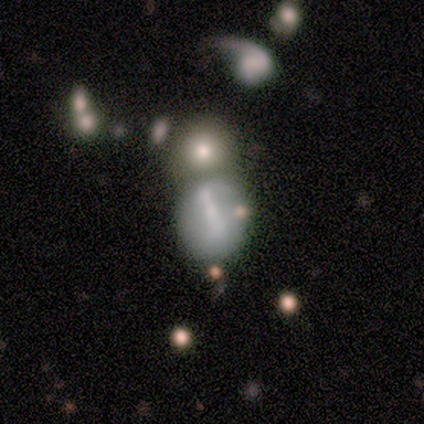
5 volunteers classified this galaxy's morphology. Smooth or featured? featured or disk (60%)
Edge-on disk? no (100%)
Bar? no (67%)
Spiral arms? no (67%)
Bulge size? small (67%)
Merging? none (40%, tied with merger)